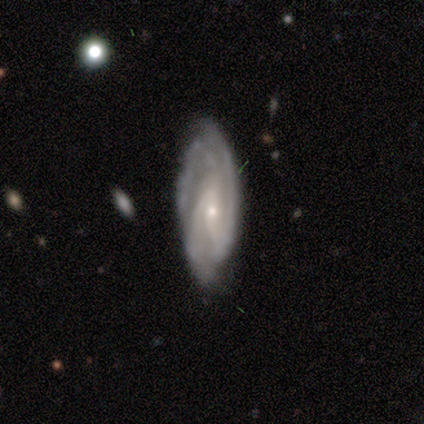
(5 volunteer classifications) featured or disk 100%, smooth 0%, star or artifact 0%. Down the decision tree: edge-on disk — no (100%); bar — no (80%); spiral arms — yes (100%); spiral arm count — 2 (60%); spiral winding — tight (80%); bulge size — small (80%); merging — none (60%).